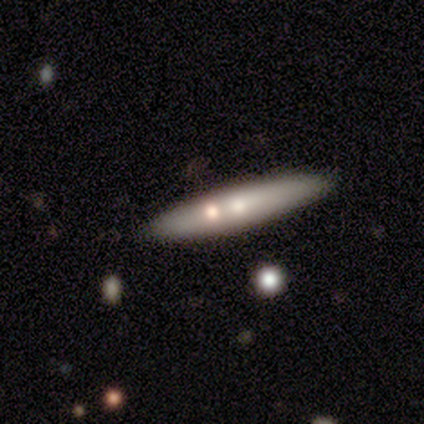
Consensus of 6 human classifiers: Smooth or featured?
  - smooth: 100% *
  - featured or disk: 0%
  - star or artifact: 0%
How rounded?
  - cigar-shaped: 83% *
  - in between: 17%
  - round: 0%
Merging?
  - none: 67% *
  - minor disturbance: 33%
  - major disturbance: 0%
  - merger: 0%